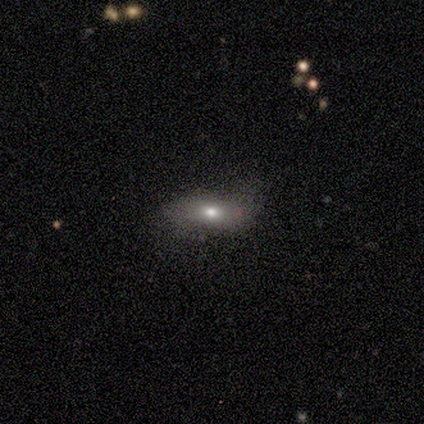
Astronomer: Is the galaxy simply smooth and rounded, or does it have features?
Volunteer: smooth — 100%.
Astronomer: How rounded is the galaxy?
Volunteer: in between — 100%.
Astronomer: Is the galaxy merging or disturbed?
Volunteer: none — 100%.